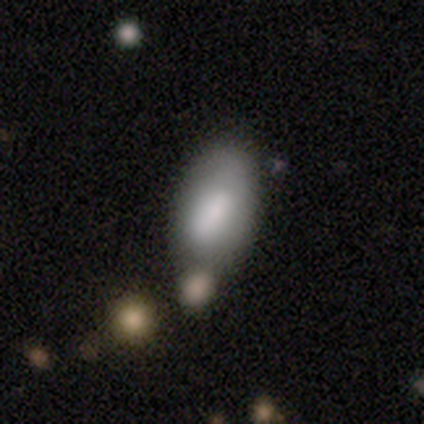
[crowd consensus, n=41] Overall: smooth (88%). How rounded: in between (94%). Merging: none (39%; merger 27%).